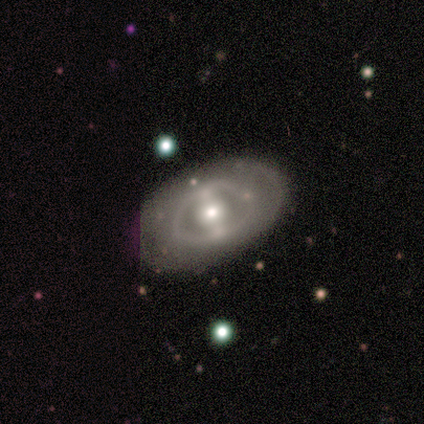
A featured or disk galaxy (60%) with no bar (100%), 2 (100%) medium (50%, tied with loose) spiral arms (67%) and a moderate central bulge (67%). Merging: none (80%).